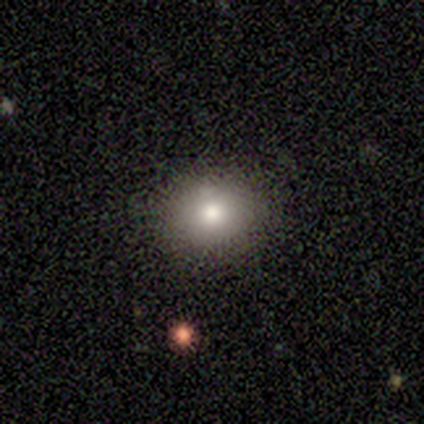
Volunteers were most divided on "how rounded": round: 75%, in between: 25%, cigar-shaped: 0%. More confident: smooth or featured — smooth (80%); merging — none (75%).